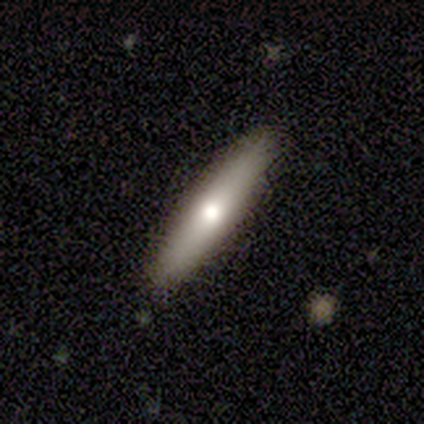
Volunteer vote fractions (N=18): This appears to be a smooth galaxy with no disk features (56%) that is cigar-shaped (90%). Merging: none (100%).